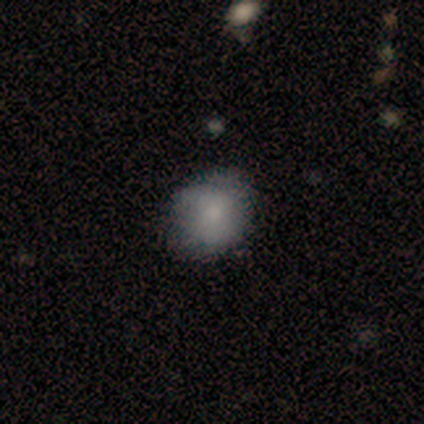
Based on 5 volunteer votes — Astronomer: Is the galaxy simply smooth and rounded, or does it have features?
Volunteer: smooth — 80%.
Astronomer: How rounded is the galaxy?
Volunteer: round — 50%, tied with in between at 50%.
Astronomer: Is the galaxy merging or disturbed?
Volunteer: none — 50%, tied with minor disturbance at 50%.